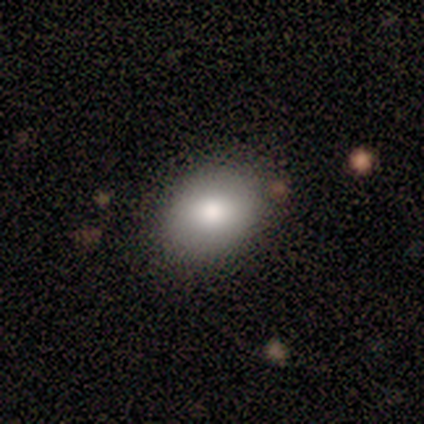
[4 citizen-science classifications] smooth 100%, featured or disk 0%, star or artifact 0%. Down the decision tree: how rounded — in between (75%); merging — none (75%).